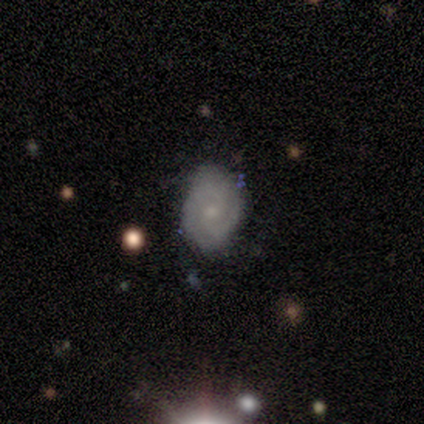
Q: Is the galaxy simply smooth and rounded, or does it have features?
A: featured or disk — 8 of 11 (73%).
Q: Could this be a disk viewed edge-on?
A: no — 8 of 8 (100%).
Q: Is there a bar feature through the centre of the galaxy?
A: weak — 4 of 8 (50%, tied with no).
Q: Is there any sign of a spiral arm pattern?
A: yes — 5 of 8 (62%).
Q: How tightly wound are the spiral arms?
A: tight — 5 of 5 (100%).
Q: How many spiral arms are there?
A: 2 — 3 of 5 (60%).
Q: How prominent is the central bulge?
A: small — 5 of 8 (62%).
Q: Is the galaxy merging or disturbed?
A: none — 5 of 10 (50%, tied with minor disturbance).